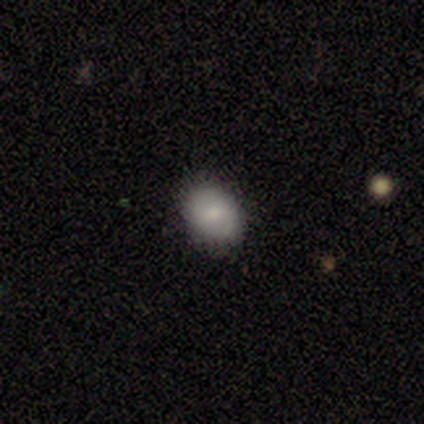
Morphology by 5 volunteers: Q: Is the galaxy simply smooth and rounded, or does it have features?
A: smooth — 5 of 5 (100%).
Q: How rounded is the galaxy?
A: round — 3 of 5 (60%).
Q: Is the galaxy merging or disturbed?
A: none — 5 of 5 (100%).